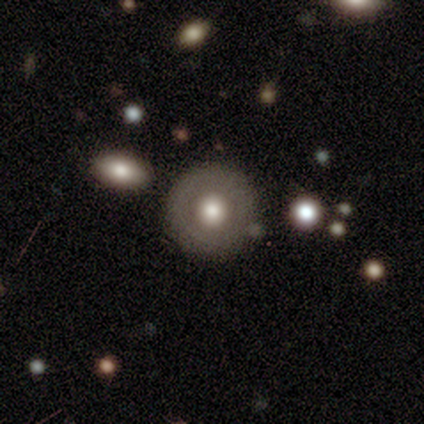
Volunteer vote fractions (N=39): Smooth or featured: smooth — 51% (featured or disk — 49%)
How rounded: round — 100%
Merging: none — 51% (merger — 21%)